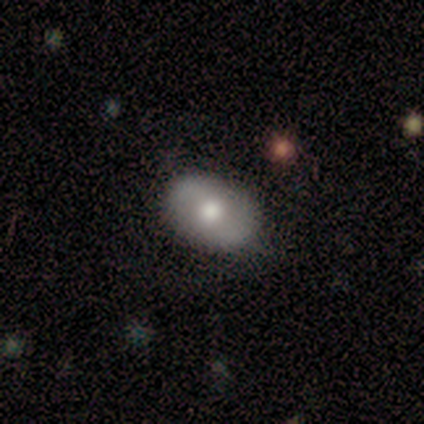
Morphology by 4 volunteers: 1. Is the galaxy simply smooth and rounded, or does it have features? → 50% smooth (tied), 50% featured or disk (tied), 0% star or artifact.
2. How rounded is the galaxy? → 50% round (tied), 50% in between (tied), 0% cigar-shaped.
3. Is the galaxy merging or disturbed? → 75% none, 25% major disturbance, 0% minor disturbance, 0% merger.